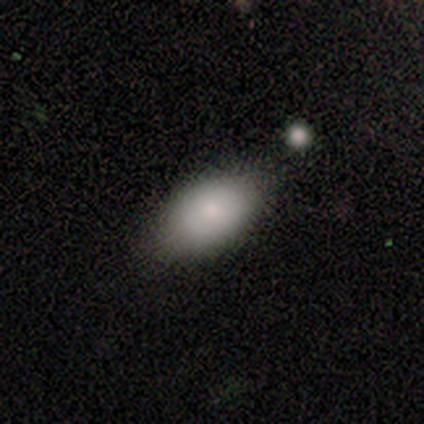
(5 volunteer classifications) Morphology: type=smooth (100%); roundness=in between (80%); merging=none (60%).